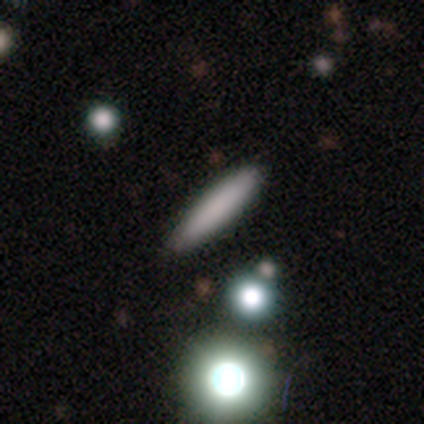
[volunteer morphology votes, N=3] This is clearly a smooth galaxy (100%). How rounded: clearly cigar-shaped (100%). Merging: likely none (67%).